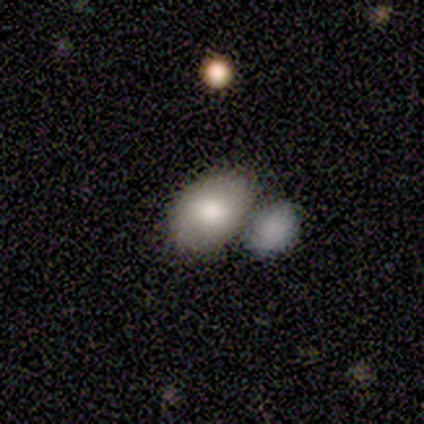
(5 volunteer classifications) smooth_or_featured: smooth (p=0.80) [alt: featured or disk p=0.20]
how_rounded: in between (p=0.75) [alt: round p=0.25]
merging: none (p=0.80) [alt: merger p=0.20]